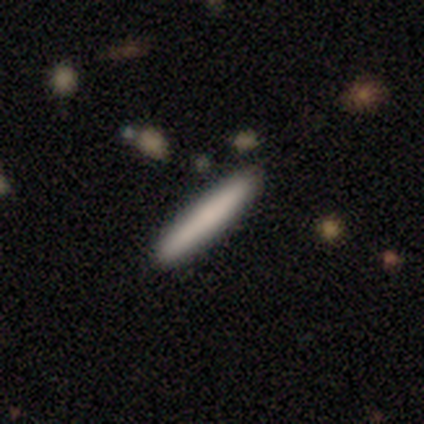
Q: Smooth or featured?
A: smooth (82%); runner-up: featured or disk (13%)
Q: How rounded?
A: cigar-shaped (100%)
Q: Merging?
A: none (84%); runner-up: minor disturbance (8%)